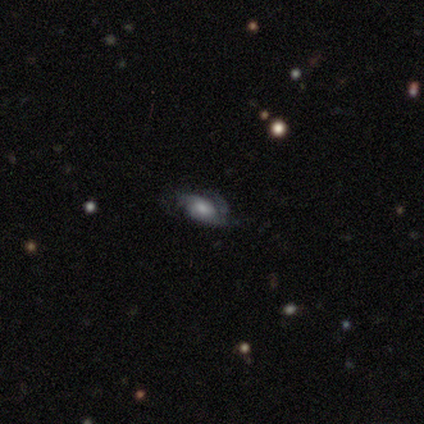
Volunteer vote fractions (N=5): Smooth or featured?
  - featured or disk: 80% *
  - smooth: 20%
  - star or artifact: 0%
Edge-on disk?
  - no: 75% *
  - yes: 25%
Bar?
  - no: 67% *
  - weak: 33%
  - strong: 0%
Spiral arms?
  - yes: 100% *
  - no: 0%
Spiral winding?
  - tight: 67% *
  - medium: 33%
  - loose: 0%
Spiral arm count?
  - 3: 67% *
  - can't tell: 33%
  - 1: 0%
  - 2: 0%
  - 4: 0%
  - more than 4: 0%
Bulge size?
  - small: 67% *
  - moderate: 33%
  - dominant: 0%
  - large: 0%
  - none: 0%
Merging?
  - none: 60% *
  - minor disturbance: 40%
  - major disturbance: 0%
  - merger: 0%